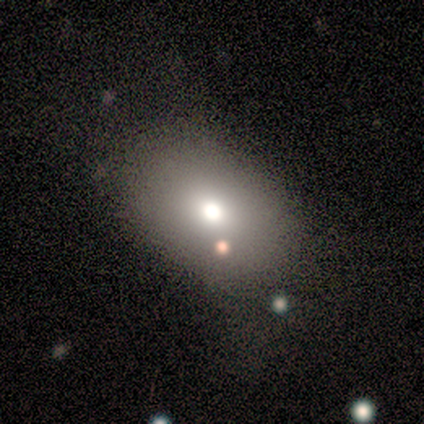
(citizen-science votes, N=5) This appears to be a star or artifact, not a galaxy (60%).